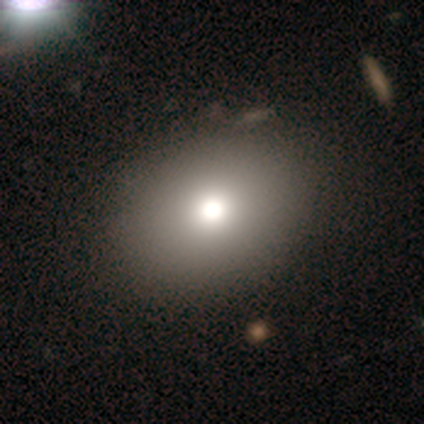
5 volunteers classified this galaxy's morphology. Volunteers were most divided on "how rounded": round: 67%, in between: 33%, cigar-shaped: 0%. More confident: merging — none (100%); smooth or featured — smooth (60%).